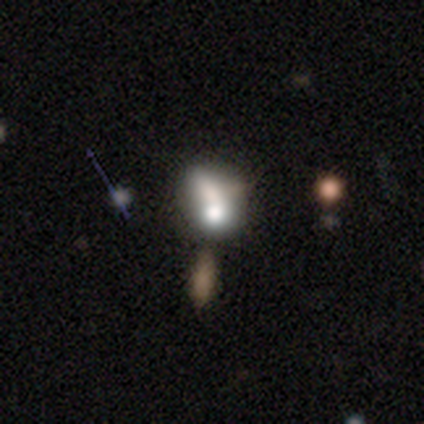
smooth 61%, featured or disk 22%, star or artifact 17%. Down the decision tree: how rounded — in between (52%); merging — merger (50%).